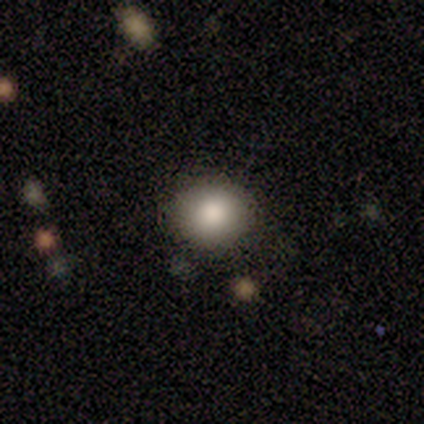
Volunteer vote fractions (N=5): Q: Smooth or featured?
A: smooth (60%); runner-up: star or artifact (40%)
Q: How rounded?
A: round (67%); runner-up: in between (33%)
Q: Merging?
A: none (100%)